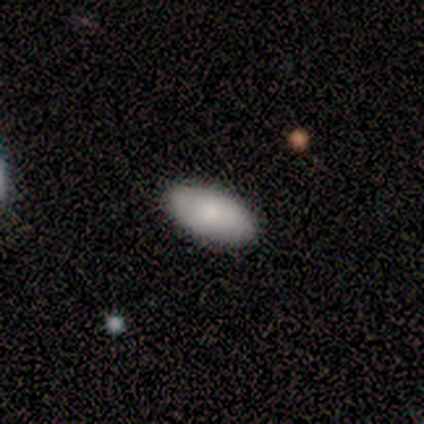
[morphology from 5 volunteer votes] type=smooth (80%); roundness=in between (100%); merging=none (100%).